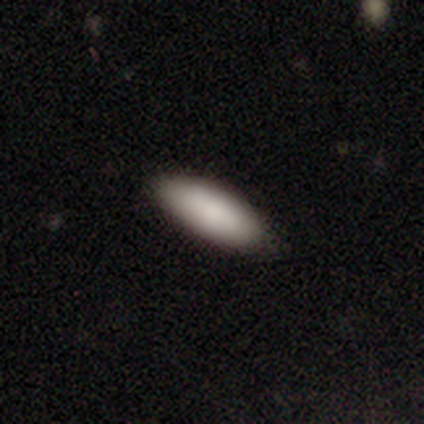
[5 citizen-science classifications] Smooth or featured? 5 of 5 (100%) said smooth. How rounded? 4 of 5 (80%) said in between. Merging? 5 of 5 (100%) said none.